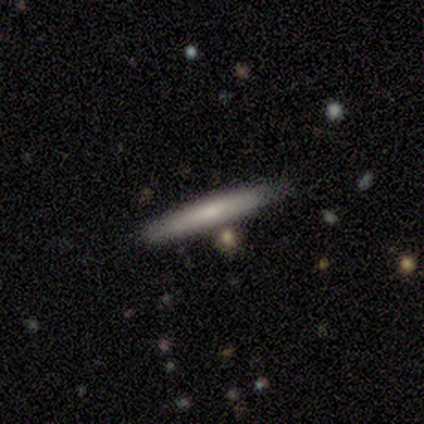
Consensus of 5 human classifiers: Smooth or featured?
  - smooth: 60% *
  - featured or disk: 40%
  - star or artifact: 0%
How rounded?
  - cigar-shaped: 100% *
  - round: 0%
  - in between: 0%
Merging?
  - none: 100% *
  - minor disturbance: 0%
  - major disturbance: 0%
  - merger: 0%